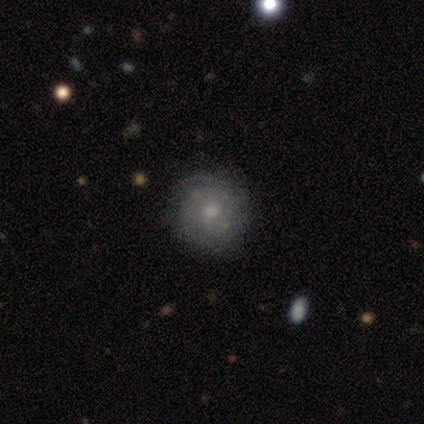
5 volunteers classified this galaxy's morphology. type=featured or disk (80%); edge-on=no (100%); bar=no (75%); spiral arms=yes (50%, tied with no); winding=tight (50%, tied with medium); arm count=1 (50%, tied with can't tell); bulge=moderate (75%); merging=none (100%).